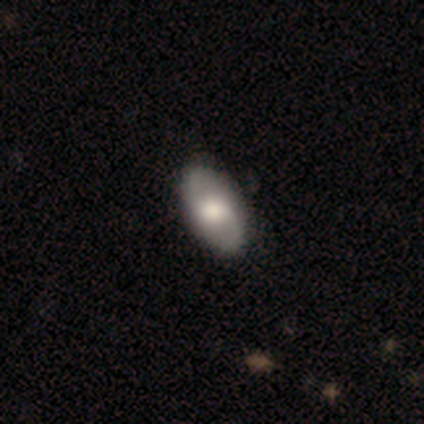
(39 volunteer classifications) Morphology: type=smooth (74%); roundness=in between (97%); merging=none (94%).